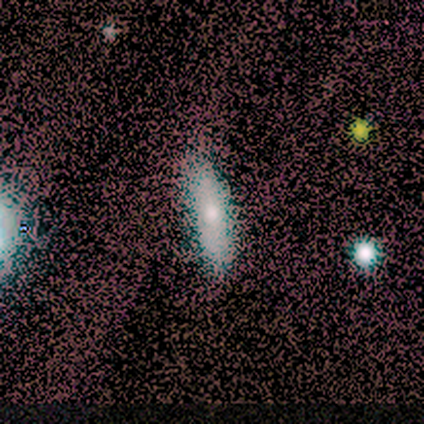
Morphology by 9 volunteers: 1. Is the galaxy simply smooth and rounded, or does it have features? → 56% smooth, 22% featured or disk, 22% star or artifact.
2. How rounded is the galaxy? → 60% cigar-shaped, 40% in between, 0% round.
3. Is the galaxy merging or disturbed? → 86% none, 14% minor disturbance, 0% major disturbance, 0% merger.